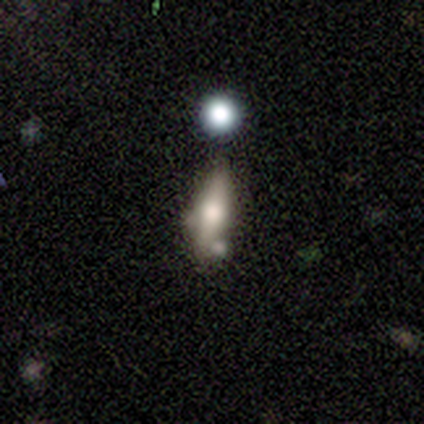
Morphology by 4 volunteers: smooth 50% (tied), featured or disk 50% (tied), star or artifact 0%. Down the decision tree: how rounded — cigar-shaped (100%); merging — none (50%).